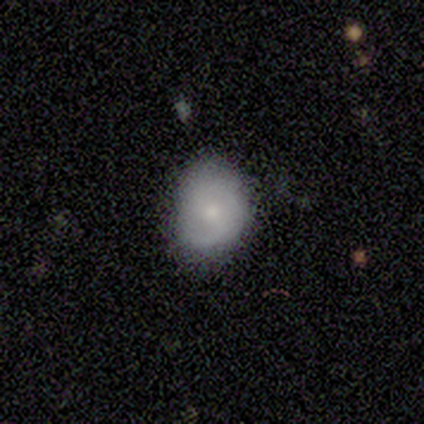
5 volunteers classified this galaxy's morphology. A smooth galaxy with no disk features (80%) that is round (50%, tied with in between).

Vote fractions:
- Smooth or featured? smooth: 80% / featured or disk: 20% / star or artifact: 0%
- How rounded? round: 50% (tied) / in between: 50% (tied) / cigar-shaped: 0%
- Merging? none: 80% / minor disturbance: 20% / major disturbance: 0% / merger: 0%